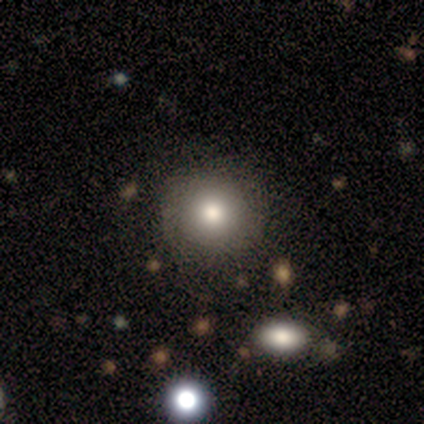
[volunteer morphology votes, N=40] Q: Smooth or featured?
A: smooth (78%); runner-up: star or artifact (12%)
Q: How rounded?
A: round (81%); runner-up: in between (19%)
Q: Merging?
A: none (89%); runner-up: minor disturbance (6%)